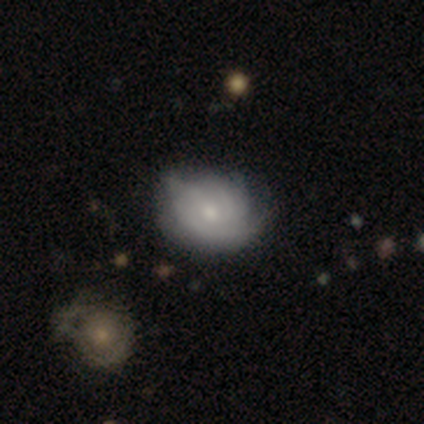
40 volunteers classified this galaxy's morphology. This appears to be a featured or disk galaxy (55%) with no bar (91%), tight (53%) spiral arms (86%) and a small central bulge (59%). Merging: none (42%).